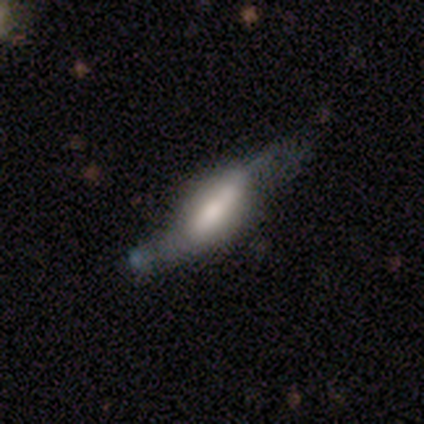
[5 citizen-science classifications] This appears to be a featured or disk galaxy (60%) with a weak bar (50%, tied with no), no spiral arms (100%) and a moderate central bulge (100%). Merging: minor disturbance (40%, tied with major disturbance).